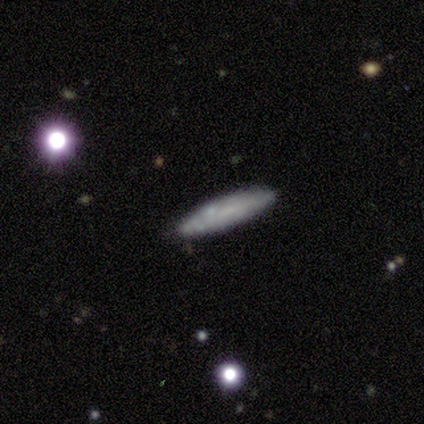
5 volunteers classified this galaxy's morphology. A smooth galaxy with no disk features (80%) that is cigar-shaped (75%). Merging: none (100%).